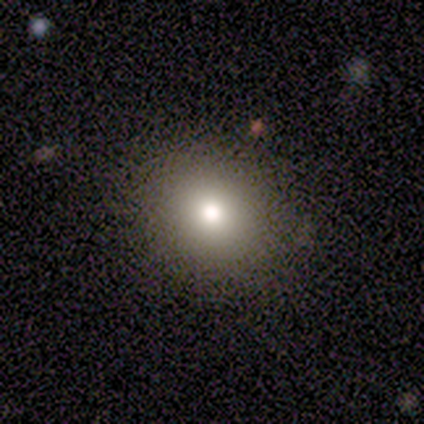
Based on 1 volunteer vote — Smooth or featured: star or artifact — 100%